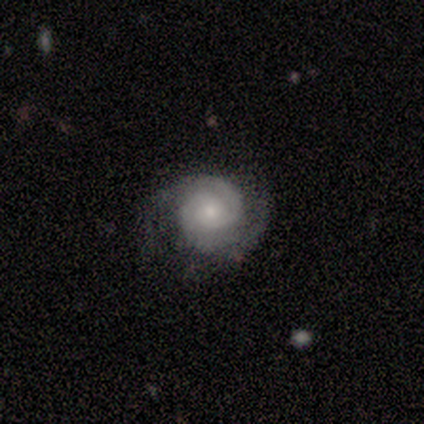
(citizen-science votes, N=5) This is clearly a featured or disk galaxy (100%). It is clearly not viewed edge-on (100%). Bar: likely no (60%). Spiral arm pattern: clearly yes (100%). Spiral arm count: clearly 2 (80%). Spiral winding: marginally tight (40%, tied with medium). Central bulge: likely small (60%). Merging: clearly none (100%).